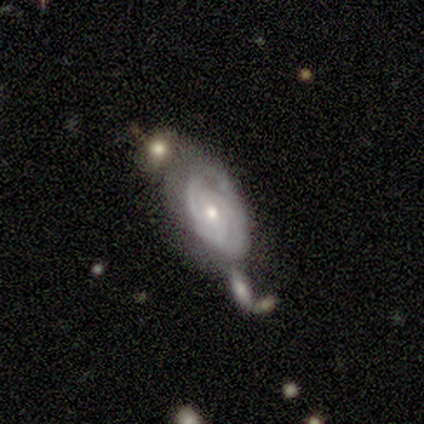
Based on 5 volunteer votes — Smooth or featured? 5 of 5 (100%) said featured or disk. Edge-on disk? 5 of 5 (100%) said no. Bar? 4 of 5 (80%) said no. Spiral arms? 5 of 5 (100%) said yes. Spiral winding? 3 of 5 (60%) said tight. Spiral arm count? 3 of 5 (60%) said can't tell. Bulge size? 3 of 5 (60%) said moderate. Merging? 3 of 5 (60%) said none.